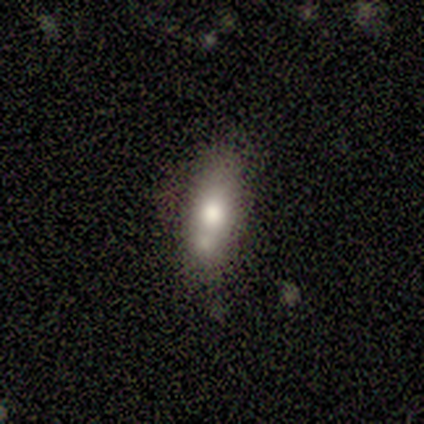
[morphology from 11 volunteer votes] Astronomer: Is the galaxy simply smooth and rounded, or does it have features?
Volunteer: smooth — 36%, tied with star or artifact at 36%.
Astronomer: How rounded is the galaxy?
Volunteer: in between — 75%.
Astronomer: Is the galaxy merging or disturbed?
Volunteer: none — 57%.